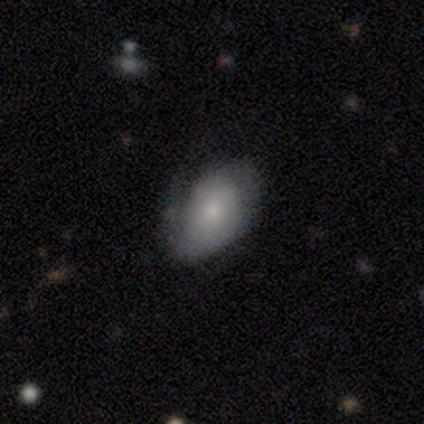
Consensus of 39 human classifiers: A smooth galaxy with no disk features (54%) that is in between round and cigar-shaped (90%). Merging: none (36%).